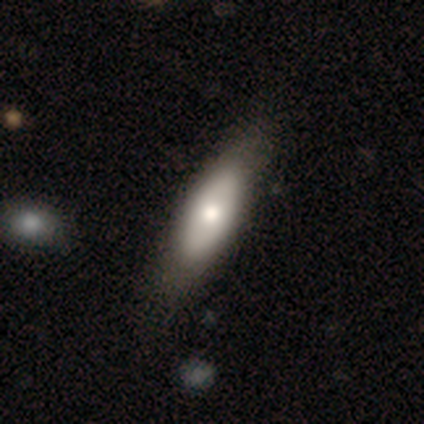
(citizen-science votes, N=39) This appears to be a smooth galaxy with no disk features (59%) that is in between round and cigar-shaped (65%). Merging: none (36%).